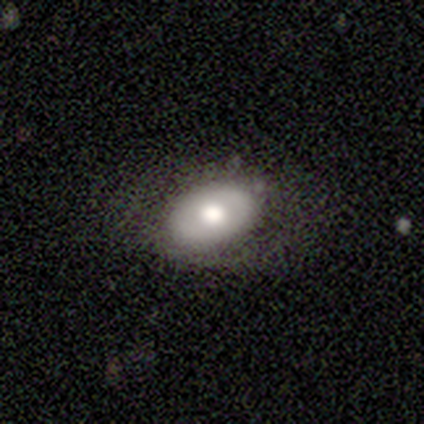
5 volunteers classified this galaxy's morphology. smooth_or_featured: featured or disk (p=0.60) [alt: smooth p=0.40]
disk_edge_on: no (p=1.00)
bar: no (p=1.00)
has_spiral_arms: no (p=1.00)
bulge_size: moderate (p=0.67) [alt: large p=0.33]
merging: none (p=1.00)